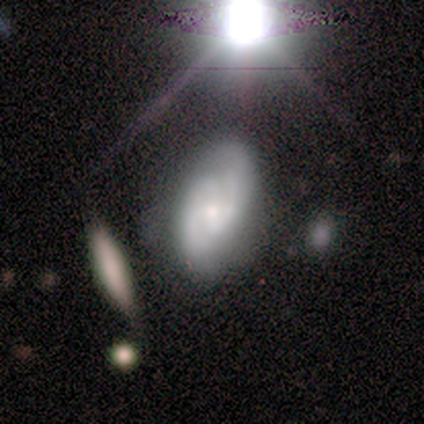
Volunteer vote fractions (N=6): Smooth or featured? 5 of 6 (83%) said featured or disk. Edge-on disk? 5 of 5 (100%) said no. Bar? 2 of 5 (40%, tied with no) said weak. Spiral arms? 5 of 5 (100%) said yes. Spiral winding? 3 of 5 (60%) said tight. Spiral arm count? 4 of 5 (80%) said 2. Bulge size? 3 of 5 (60%) said moderate. Merging? 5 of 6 (83%) said none.